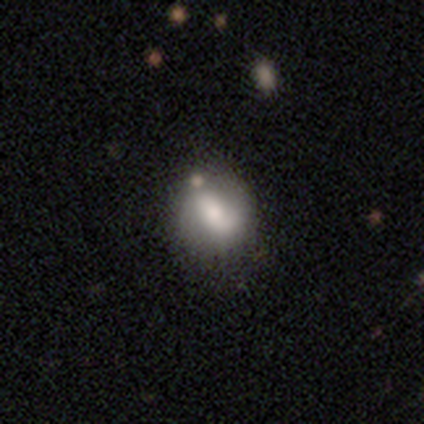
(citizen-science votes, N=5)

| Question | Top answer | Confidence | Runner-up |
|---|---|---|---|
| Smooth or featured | featured or disk | 60% | smooth (40%) |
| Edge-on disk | no | 67% | yes (33%) |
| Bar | strong | 50% | tied: no (50%) |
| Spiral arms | yes | 100% | — |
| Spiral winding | medium | 50% | tied: loose (50%) |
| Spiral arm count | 2 | 100% | — |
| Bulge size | dominant | 50% | tied: small (50%) |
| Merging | none | 60% | minor disturbance (20%) |